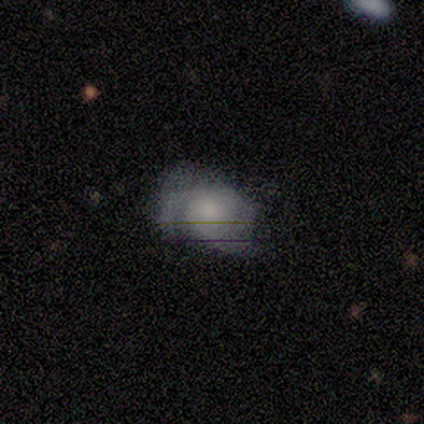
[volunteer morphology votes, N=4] A smooth galaxy with no disk features (50%, tied with featured or disk) that is round (50%, tied with in between).

Vote fractions:
- Smooth or featured? smooth: 50% (tied) / featured or disk: 50% (tied) / star or artifact: 0%
- How rounded? round: 50% (tied) / in between: 50% (tied) / cigar-shaped: 0%
- Merging? minor disturbance: 75% / none: 25% / major disturbance: 0% / merger: 0%